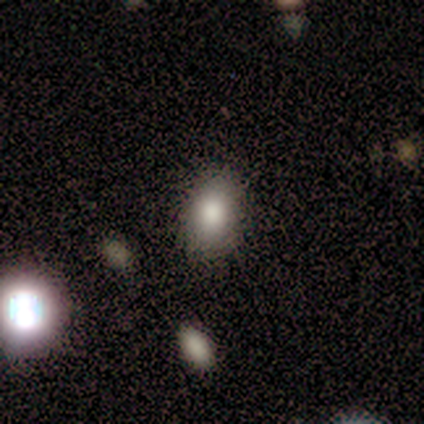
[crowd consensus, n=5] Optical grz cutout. It shows a smooth galaxy with no disk features (80%) that is in between round and cigar-shaped (75%). Merging: none (80%).